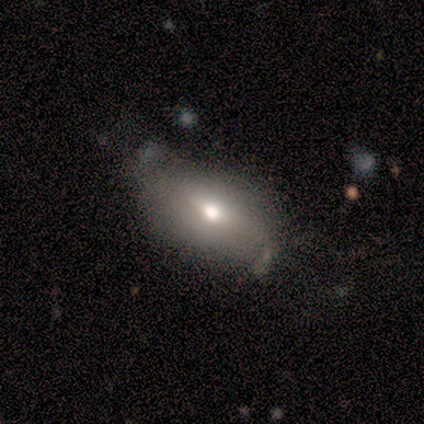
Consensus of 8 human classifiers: This appears to be a smooth galaxy with no disk features (62%) that is in between round and cigar-shaped (100%). Merging: none (50%).